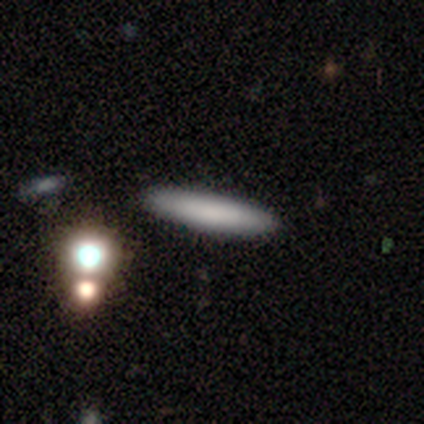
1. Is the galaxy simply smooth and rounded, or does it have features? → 80% smooth, 20% star or artifact, 0% featured or disk.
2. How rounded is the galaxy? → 100% cigar-shaped, 0% round, 0% in between.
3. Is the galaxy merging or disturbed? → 100% none, 0% minor disturbance, 0% major disturbance, 0% merger.